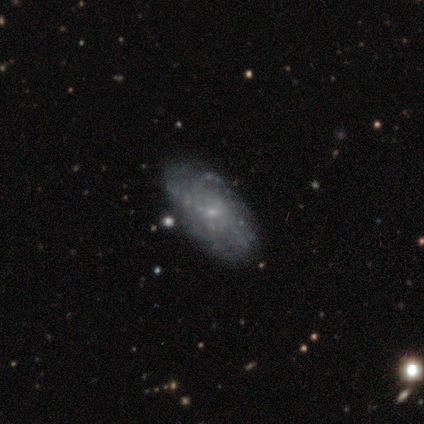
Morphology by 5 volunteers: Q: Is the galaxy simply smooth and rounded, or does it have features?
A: featured or disk — 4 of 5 (80%).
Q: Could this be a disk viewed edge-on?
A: no — 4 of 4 (100%).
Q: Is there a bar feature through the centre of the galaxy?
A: no — 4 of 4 (100%).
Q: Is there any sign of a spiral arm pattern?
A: no — 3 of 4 (75%).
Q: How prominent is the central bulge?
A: small — 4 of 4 (100%).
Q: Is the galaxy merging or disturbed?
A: none — 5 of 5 (100%).